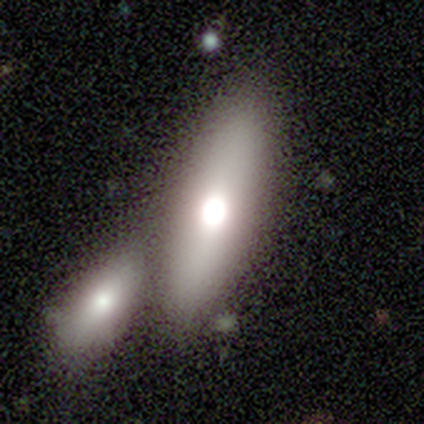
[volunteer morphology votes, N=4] type=smooth (75%); roundness=in between (100%); merging=merger (75%).